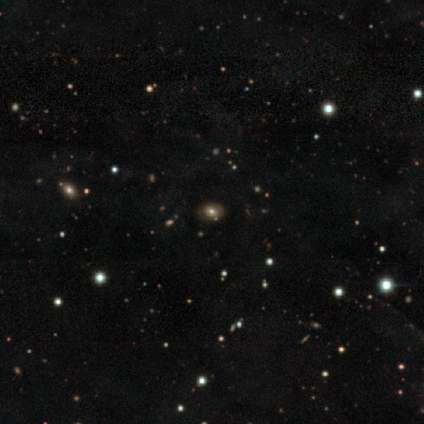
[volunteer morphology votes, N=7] Overall: smooth (43%; featured or disk 29%). How rounded: in between (67%; round 33%). Merging: none (80%).